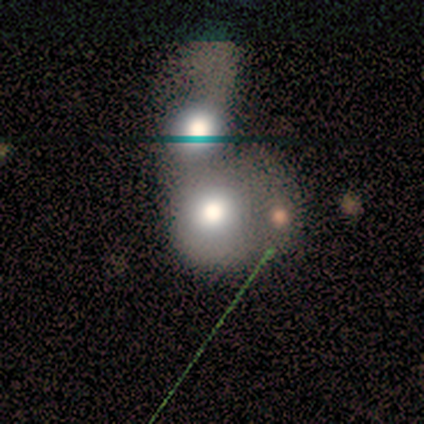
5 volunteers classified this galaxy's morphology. Smooth or featured? smooth (60%)
How rounded? round (100%)
Merging? merger (75%)